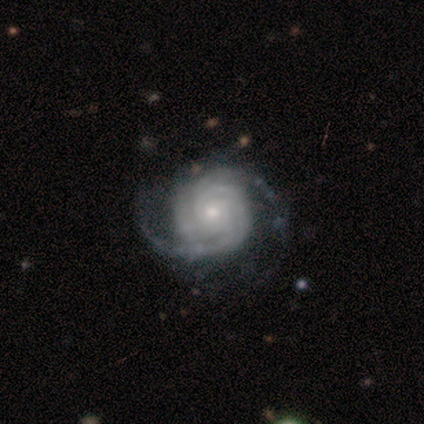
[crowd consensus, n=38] smooth-or-featured: featured or disk: 97% | star or artifact: 3% | smooth: 0%
  disk-edge-on: no: 100% | yes: 0%
    bar: no: 86% | strong: 8% | weak: 5%
    has-spiral-arms: yes: 100% | no: 0%
      spiral-winding: tight: 65% | medium: 30% | loose: 5%
      spiral-arm-count: 2: 43% | 3: 30% | can't tell: 24% | 4: 3% | 1: 0% | more than 4: 0%
    bulge-size: moderate: 46% | small: 43% | large: 8% | none: 3% | dominant: 0%
  merging: none: 51% | major disturbance: 19% | minor disturbance: 11% | merger: 0%